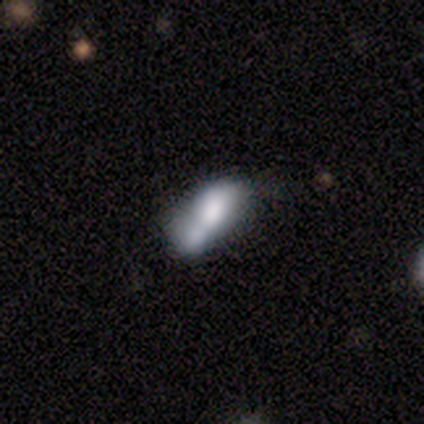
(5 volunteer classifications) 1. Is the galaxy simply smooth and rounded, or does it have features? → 60% featured or disk, 40% smooth, 0% star or artifact.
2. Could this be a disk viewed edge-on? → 67% no, 33% yes.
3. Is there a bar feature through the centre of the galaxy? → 100% no, 0% strong, 0% weak.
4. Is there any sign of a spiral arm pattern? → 100% no, 0% yes.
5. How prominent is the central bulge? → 50% large (tied), 50% small (tied), 0% dominant, 0% moderate, 0% none.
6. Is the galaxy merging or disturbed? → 40% none (tied), 40% minor disturbance (tied), 20% merger, 0% major disturbance.